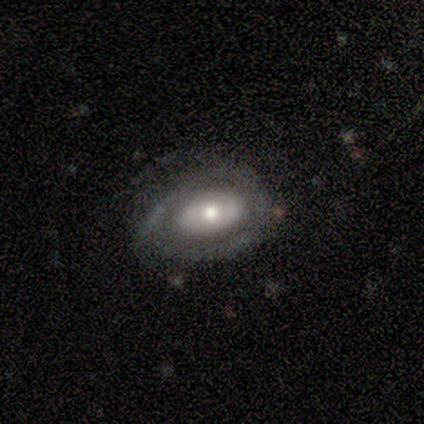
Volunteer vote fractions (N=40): smooth-or-featured: featured or disk: 80% | smooth: 20% | star or artifact: 0%
  disk-edge-on: no: 91% | yes: 9%
    bar: no: 93% | weak: 7% | strong: 0%
    has-spiral-arms: no: 55% | yes: 45%
    bulge-size: moderate: 69% | small: 21% | large: 10% | dominant: 0% | none: 0%
  merging: none: 68% | major disturbance: 18% | minor disturbance: 15% | merger: 0%